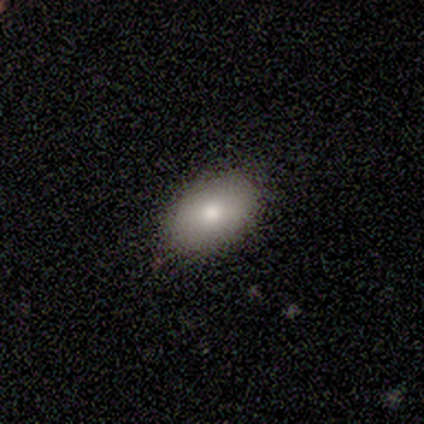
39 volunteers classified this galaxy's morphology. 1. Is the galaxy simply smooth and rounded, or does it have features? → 74% smooth, 15% featured or disk, 10% star or artifact.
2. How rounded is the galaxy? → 86% in between, 10% round, 3% cigar-shaped.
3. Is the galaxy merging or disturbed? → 97% none, 3% minor disturbance, 0% major disturbance, 0% merger.